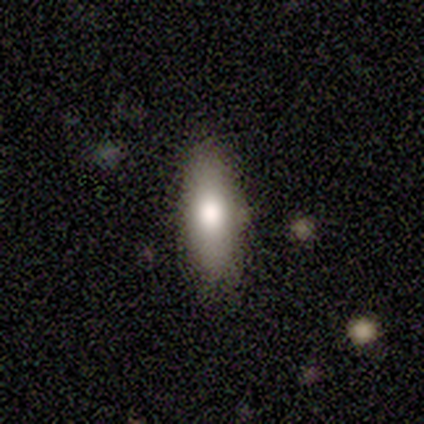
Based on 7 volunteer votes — A smooth galaxy with no disk features (86%) that is in between round and cigar-shaped (50%, tied with cigar-shaped).

Vote fractions:
- Smooth or featured? smooth: 86% / featured or disk: 14% / star or artifact: 0%
- How rounded? in between: 50% (tied) / cigar-shaped: 50% (tied) / round: 0%
- Merging? none: 86% / minor disturbance: 14% / major disturbance: 0% / merger: 0%